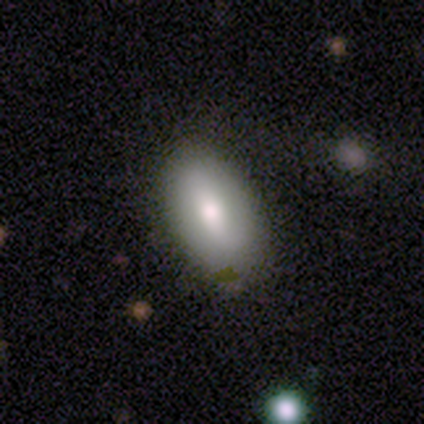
smooth-or-featured: smooth: 100% | featured or disk: 0% | star or artifact: 0%
  how-rounded: in between: 80% | cigar-shaped: 20% | round: 0%
  merging: none: 80% | minor disturbance: 20% | major disturbance: 0% | merger: 0%